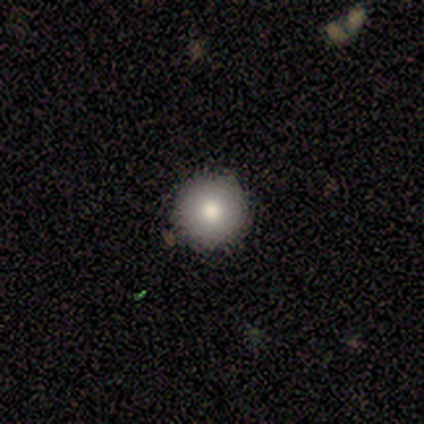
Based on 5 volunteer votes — Smooth or featured? smooth (60%)
How rounded? round (100%)
Merging? none (100%)